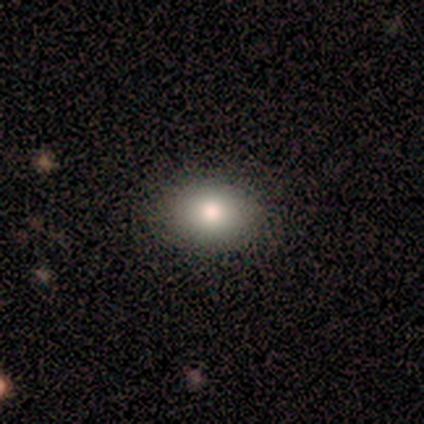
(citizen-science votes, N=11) A smooth galaxy with no disk features (55%) that is in between round and cigar-shaped (83%).

Vote fractions:
- Smooth or featured? smooth: 55% / star or artifact: 27% / featured or disk: 18%
- How rounded? in between: 83% / round: 17% / cigar-shaped: 0%
- Merging? none: 62% / minor disturbance: 25% / major disturbance: 12% / merger: 0%